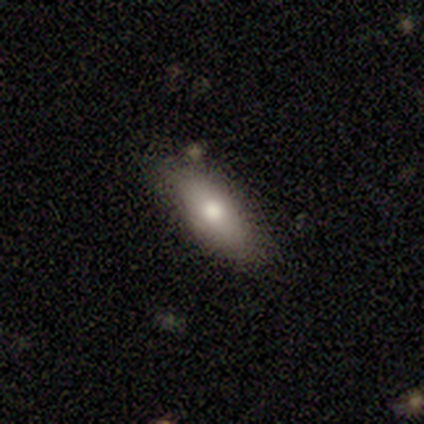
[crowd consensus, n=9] This is likely a smooth galaxy (78%). How rounded: clearly in between (86%). Merging: likely none (78%).